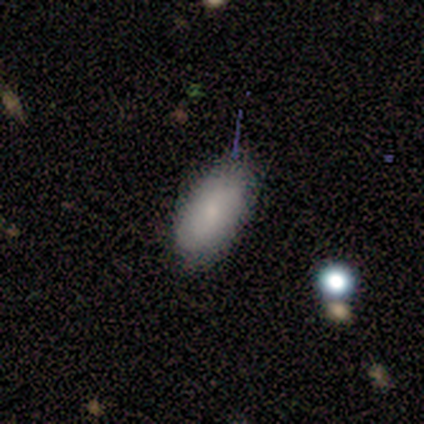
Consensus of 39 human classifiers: This is likely a smooth galaxy (79%). How rounded: clearly in between (100%). Merging: likely none (69%).